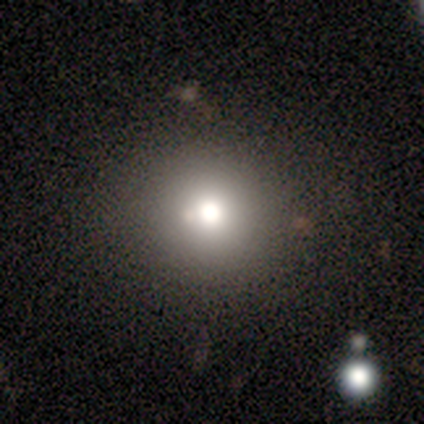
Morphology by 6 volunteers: smooth_or_featured: smooth (p=0.67) [alt: featured or disk p=0.17]
how_rounded: round (p=0.75) [alt: in between p=0.25]
merging: none (p=1.00)